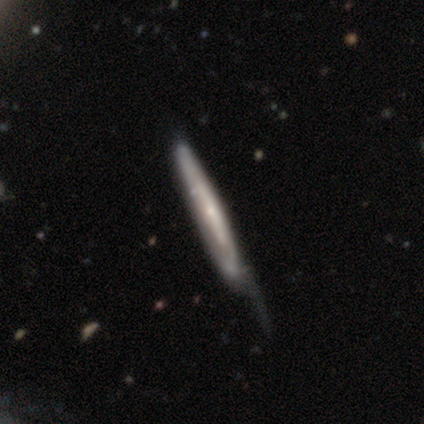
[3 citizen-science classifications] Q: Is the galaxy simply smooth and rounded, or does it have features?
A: featured or disk — 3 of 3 (100%).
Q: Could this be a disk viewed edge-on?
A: yes — 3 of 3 (100%).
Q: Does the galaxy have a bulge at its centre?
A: none — 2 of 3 (67%).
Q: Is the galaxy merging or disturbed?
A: none — 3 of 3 (100%).